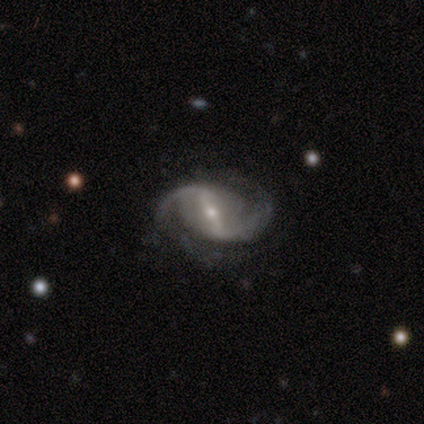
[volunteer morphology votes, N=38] This appears to be a featured or disk galaxy (92%) with a strong bar (70%), 2 (91%) medium (52%) spiral arms (100%) and a small central bulge (88%). Merging: none (70%).